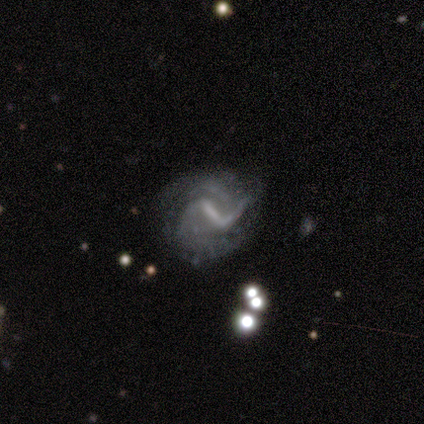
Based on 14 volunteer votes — A featured or disk galaxy (100%) with a strong bar (64%), 2 (55%) medium (36%, tied with loose) spiral arms (79%) and a small central bulge (57%). Merging: none (57%).